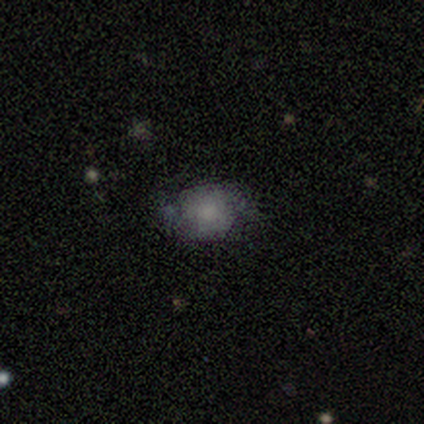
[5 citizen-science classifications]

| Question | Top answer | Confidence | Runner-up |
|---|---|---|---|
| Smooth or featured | smooth | 60% | featured or disk (40%) |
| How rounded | round | 67% | in between (33%) |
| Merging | none | 100% | — |